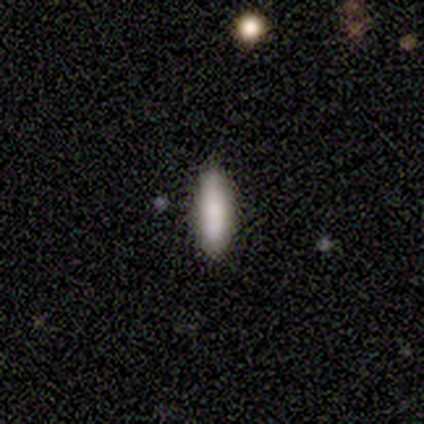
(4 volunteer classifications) Volunteers were most divided on "how rounded" (2-way tie): in between: 50%, cigar-shaped: 50%, round: 0%. More confident: merging — none (67%); smooth or featured — smooth (50%).